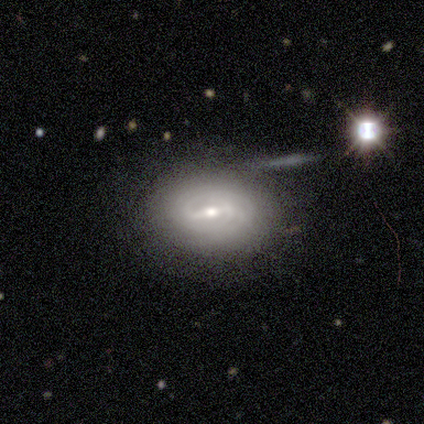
This appears to be a featured or disk galaxy (60%) with a strong bar (100%), 2 (33%, tied with 3 and can't tell) tight (67%) spiral arms (100%) and a small central bulge (67%). Merging: none (80%).